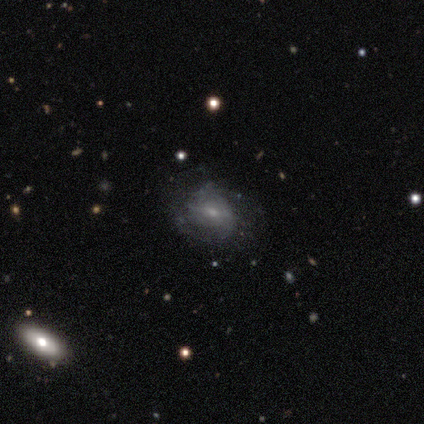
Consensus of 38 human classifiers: Q: Smooth or featured?
A: featured or disk (53%); runner-up: smooth (39%)
Q: Edge-on disk?
A: no (95%); runner-up: yes (5%)
Q: Bar?
A: weak (47%); runner-up: no (37%)
Q: Spiral arms?
A: yes (79%); runner-up: no (21%)
Q: Spiral winding?
A: medium (47%); runner-up: tight (40%)
Q: Spiral arm count?
A: can't tell (60%); runner-up: 2 (33%)
Q: Bulge size?
A: small (79%); runner-up: moderate (16%)
Q: Merging?
A: none (60%); runner-up: minor disturbance (31%)